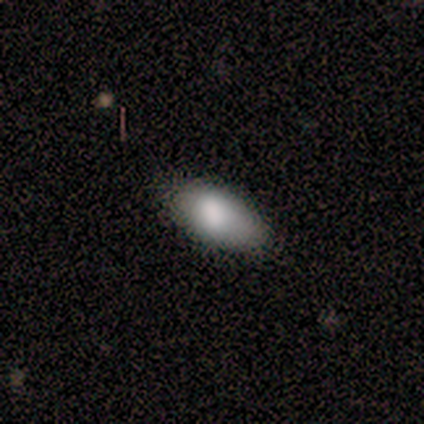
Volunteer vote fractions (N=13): smooth-or-featured: smooth: 69% | featured or disk: 31% | star or artifact: 0%
  how-rounded: in between: 89% | cigar-shaped: 11% | round: 0%
  merging: none: 62% | minor disturbance: 38% | major disturbance: 0% | merger: 0%